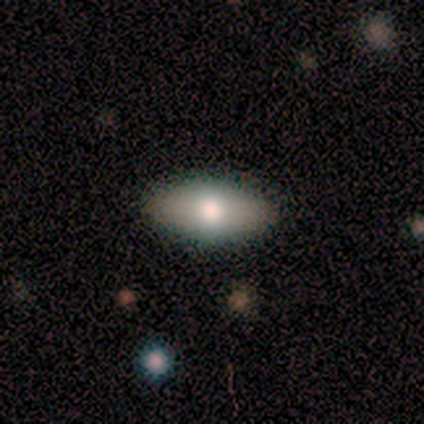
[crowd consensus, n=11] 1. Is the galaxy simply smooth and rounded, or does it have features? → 64% smooth, 18% featured or disk, 18% star or artifact.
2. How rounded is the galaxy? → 86% in between, 14% round, 0% cigar-shaped.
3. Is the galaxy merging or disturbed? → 100% none, 0% minor disturbance, 0% major disturbance, 0% merger.